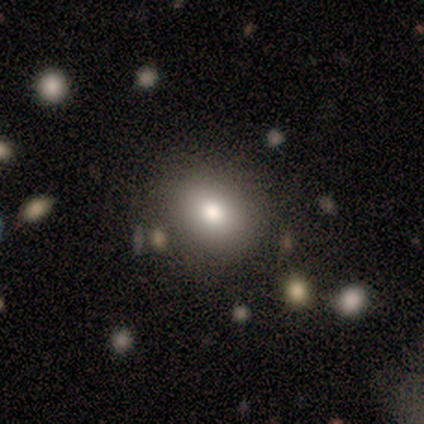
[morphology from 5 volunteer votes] A smooth galaxy with no disk features (80%) that is round (50%, tied with in between). Merging: none (100%).